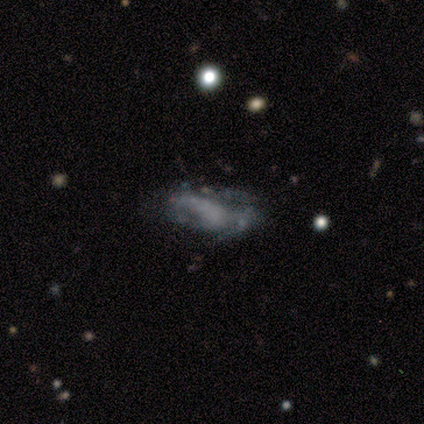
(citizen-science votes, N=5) Morphology: type=featured or disk (80%); edge-on=no (100%); bar=no (100%); spiral arms=no (75%); bulge=none (75%); merging=none (50%).